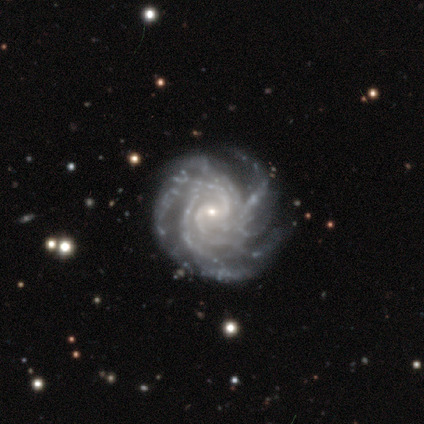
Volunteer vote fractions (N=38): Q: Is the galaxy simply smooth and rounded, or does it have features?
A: featured or disk — 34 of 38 (89%).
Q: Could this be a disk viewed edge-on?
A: no — 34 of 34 (100%).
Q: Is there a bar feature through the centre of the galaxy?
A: weak — 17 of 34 (50%).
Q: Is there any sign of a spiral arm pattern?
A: yes — 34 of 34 (100%).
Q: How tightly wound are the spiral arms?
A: tight — 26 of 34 (76%).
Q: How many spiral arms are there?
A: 4 — 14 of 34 (41%, tied with more than 4).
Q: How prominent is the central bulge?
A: small — 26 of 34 (76%).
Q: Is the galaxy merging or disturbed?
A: none — 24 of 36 (67%).